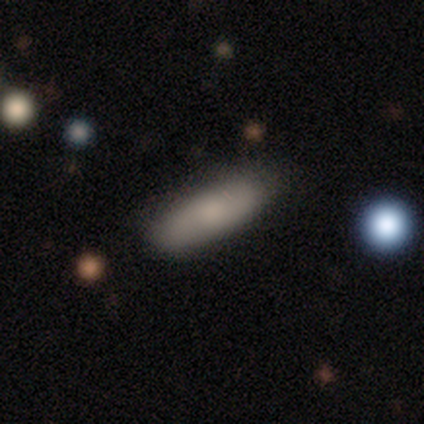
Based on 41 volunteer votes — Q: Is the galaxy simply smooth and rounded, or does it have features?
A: smooth — 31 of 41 (76%).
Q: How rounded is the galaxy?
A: cigar-shaped — 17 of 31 (55%).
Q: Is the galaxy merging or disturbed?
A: none — 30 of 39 (77%).